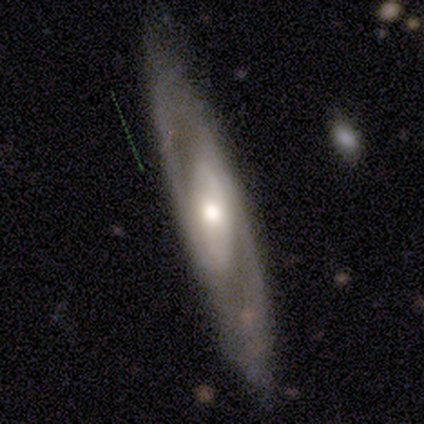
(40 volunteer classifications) Smooth or featured? featured or disk (88%)
Edge-on disk? no (77%)
Bar? weak (44%)
Spiral arms? yes (70%)
Spiral winding? medium (53%)
Spiral arm count? 2 (79%)
Bulge size? moderate (67%)
Merging? none (82%)